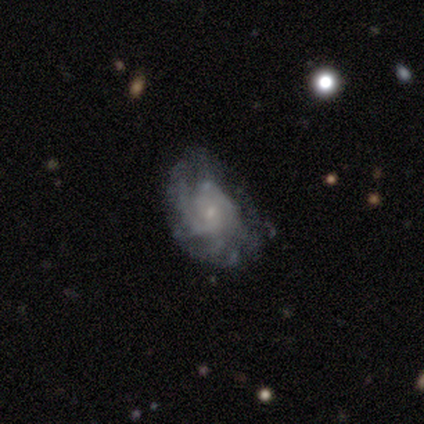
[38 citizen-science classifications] A featured or disk galaxy (79%) with no bar (63%), tight (61%) spiral arms (93%) and a small central bulge (93%).

Vote fractions:
- Smooth or featured? featured or disk: 79% / smooth: 11% / star or artifact: 11%
- Edge-on disk? no: 100% / yes: 0%
- Bar? no: 63% / weak: 33% / strong: 3%
- Spiral arms? yes: 93% / no: 7%
- Spiral winding? tight: 61% / medium: 36% / loose: 4%
- Spiral arm count? can't tell: 54% / more than 4: 18% / 2: 14% / 1: 7% / 3: 7% / 4: 0%
- Bulge size? small: 93% / none: 7% / dominant: 0% / large: 0% / moderate: 0%
- Merging? none: 62% / minor disturbance: 32% / major disturbance: 3% / merger: 3%